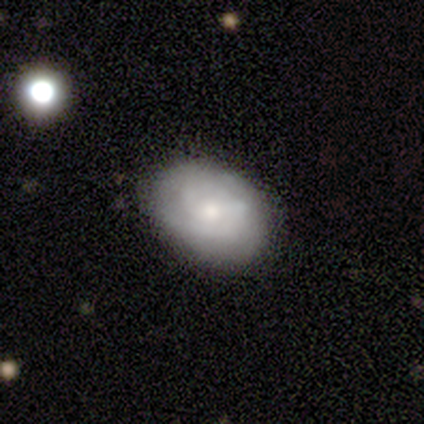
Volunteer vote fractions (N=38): A featured or disk galaxy (47%) with no bar (67%), 2 (65%) tight (59%) spiral arms (94%) and a small central bulge (50%).

Vote fractions:
- Smooth or featured? featured or disk: 47% / smooth: 45% / star or artifact: 8%
- Edge-on disk? no: 100% / yes: 0%
- Bar? no: 67% / weak: 33% / strong: 0%
- Spiral arms? yes: 94% / no: 6%
- Spiral winding? tight: 59% / medium: 29% / loose: 12%
- Spiral arm count? 2: 65% / can't tell: 24% / 3: 12% / 1: 0% / 4: 0% / more than 4: 0%
- Bulge size? small: 50% / moderate: 39% / dominant: 6% / none: 6% / large: 0%
- Merging? none: 71% / minor disturbance: 23% / major disturbance: 6% / merger: 0%